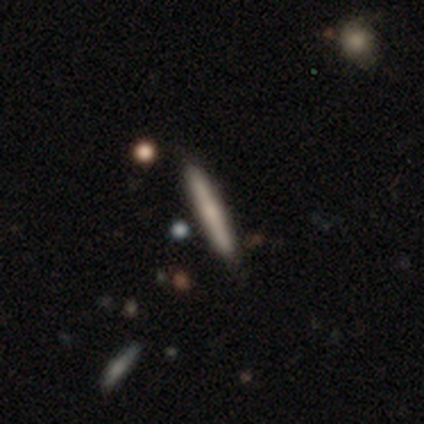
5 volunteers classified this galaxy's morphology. Overall: smooth (40%, tied with featured or disk). How rounded: cigar-shaped (100%). Merging: none (100%).